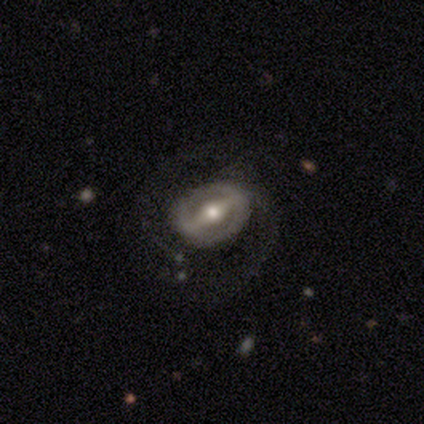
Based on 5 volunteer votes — A featured or disk galaxy (100%) with a strong bar (80%), no spiral arms (60%) and a moderate central bulge (100%). Merging: none (60%).